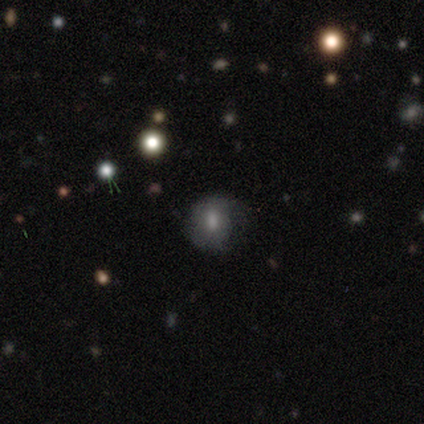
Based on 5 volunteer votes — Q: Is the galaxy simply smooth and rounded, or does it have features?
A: smooth — 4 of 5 (80%).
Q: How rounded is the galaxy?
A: round — 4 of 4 (100%).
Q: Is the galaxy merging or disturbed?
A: none — 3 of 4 (75%).